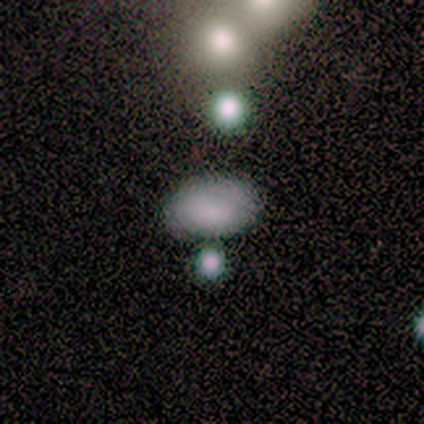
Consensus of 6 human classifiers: Smooth or featured: smooth — 83% (featured or disk — 17%)
How rounded: in between — 100%
Merging: none — 50% (minor disturbance — 17%)